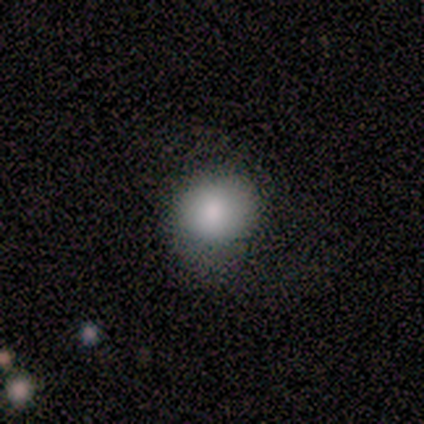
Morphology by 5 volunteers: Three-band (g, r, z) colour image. It shows a smooth galaxy with no disk features (100%) that is round (40%, tied with in between). Merging: minor disturbance (60%).